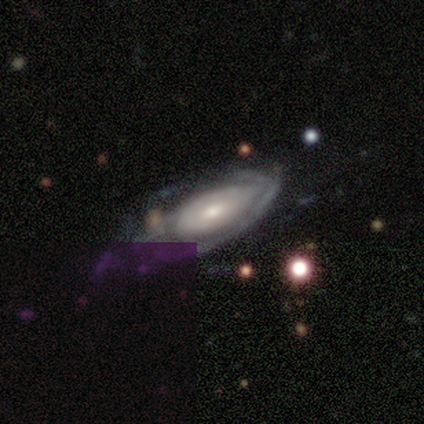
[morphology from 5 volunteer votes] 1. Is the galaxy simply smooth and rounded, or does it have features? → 60% featured or disk, 40% smooth, 0% star or artifact.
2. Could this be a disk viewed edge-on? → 67% no, 33% yes.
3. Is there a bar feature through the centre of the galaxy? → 100% weak, 0% strong, 0% no.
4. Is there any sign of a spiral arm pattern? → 100% yes, 0% no.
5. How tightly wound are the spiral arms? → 100% tight, 0% medium, 0% loose.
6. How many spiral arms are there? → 50% 2 (tied), 50% can't tell (tied), 0% 1, 0% 3, 0% 4, 0% more than 4.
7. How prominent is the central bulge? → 50% moderate (tied), 50% small (tied), 0% dominant, 0% large, 0% none.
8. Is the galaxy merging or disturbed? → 60% minor disturbance, 40% none, 0% major disturbance, 0% merger.